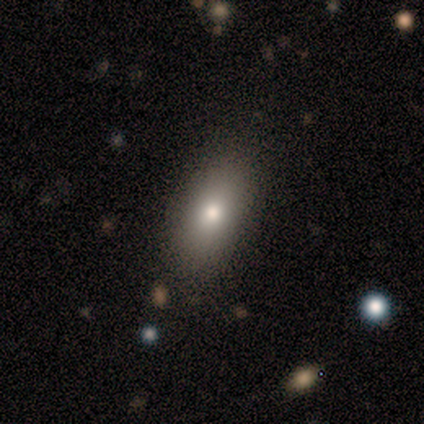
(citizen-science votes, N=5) Morphology: type=smooth (80%); roundness=in between (100%); merging=none (60%).